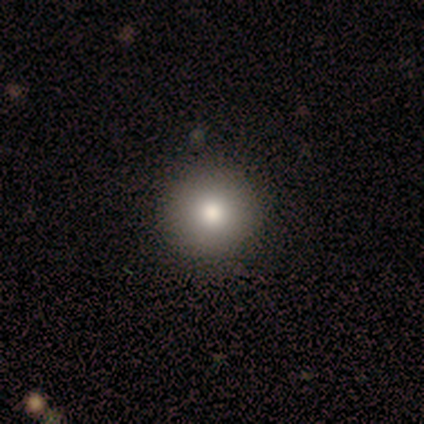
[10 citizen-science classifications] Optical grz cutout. It shows a smooth galaxy with no disk features (100%) that is round (90%). Merging: none (100%).